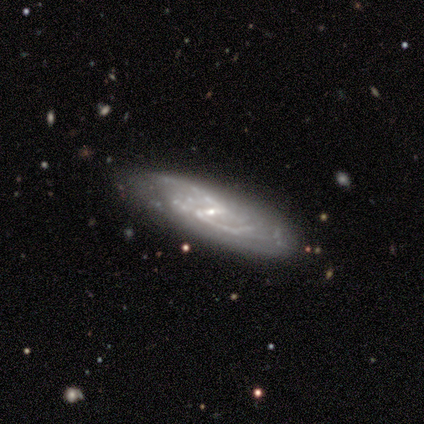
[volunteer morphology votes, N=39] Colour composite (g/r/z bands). It shows a featured or disk galaxy (87%) with a strong bar (47%, tied with weak), 2 (73%) medium (57%) spiral arms (94%) and a small central bulge (81%). Merging: none (76%).